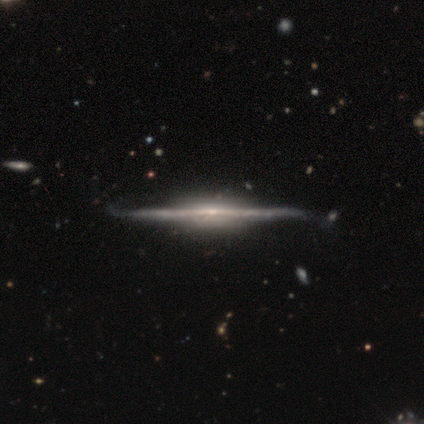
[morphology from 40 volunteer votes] Q: Smooth or featured?
A: featured or disk (92%); runner-up: smooth (5%)
Q: Edge-on disk?
A: yes (100%)
Q: Edge-on bulge?
A: rounded (46%); runner-up: boxy (41%)
Q: Merging?
A: none (49%); runner-up: minor disturbance (13%)